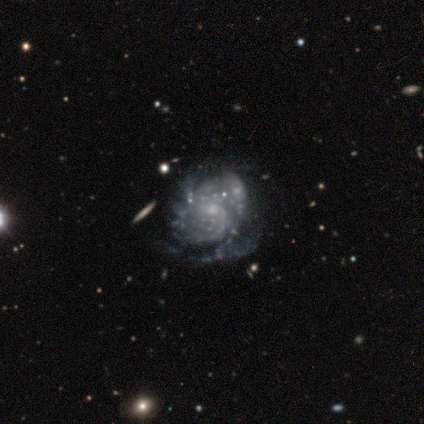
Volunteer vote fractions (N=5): Smooth or featured? featured or disk (80%)
Edge-on disk? no (100%)
Bar? no (75%)
Spiral arms? yes (100%)
Spiral winding? tight (50%)
Spiral arm count? 4 (50%)
Bulge size? moderate (50%, tied with small)
Merging? none (75%)